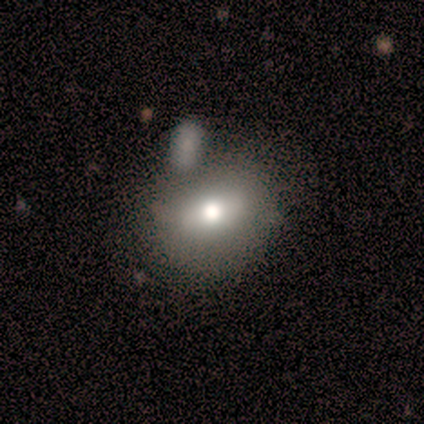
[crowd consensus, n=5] This is clearly a smooth galaxy (80%). How rounded: possibly round (50%, tied with in between). Merging: likely merger (60%).